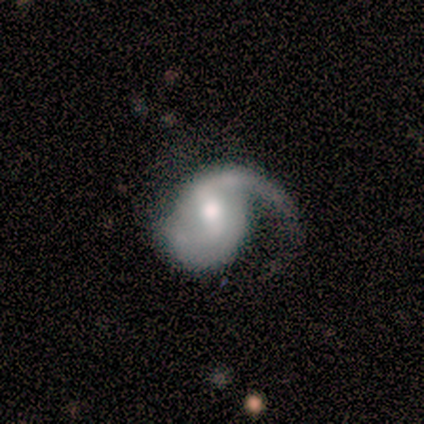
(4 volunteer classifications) This appears to be a featured or disk galaxy (100%) with a weak bar (67%), 1 (50%, tied with 2) medium (50%, tied with loose) spiral arms (67%) and a moderate central bulge (67%). Merging: major disturbance (50%).